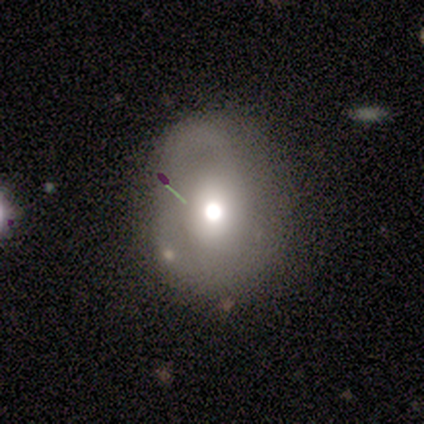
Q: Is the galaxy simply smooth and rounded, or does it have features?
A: featured or disk — 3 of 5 (60%).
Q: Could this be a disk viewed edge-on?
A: no — 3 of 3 (100%).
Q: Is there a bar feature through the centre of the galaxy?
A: no — 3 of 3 (100%).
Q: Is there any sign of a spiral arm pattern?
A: yes — 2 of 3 (67%).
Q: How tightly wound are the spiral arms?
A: medium — 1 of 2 (50%, tied with loose).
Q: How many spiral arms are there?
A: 1 — 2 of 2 (100%).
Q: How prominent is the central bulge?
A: large — 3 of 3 (100%).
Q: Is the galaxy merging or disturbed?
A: minor disturbance — 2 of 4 (50%).